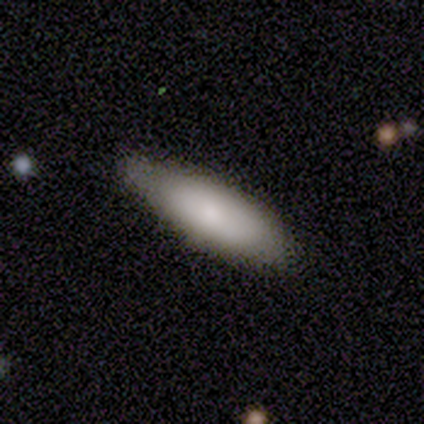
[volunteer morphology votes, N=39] A smooth galaxy with no disk features (79%) that is in between round and cigar-shaped (61%). Merging: none (59%).